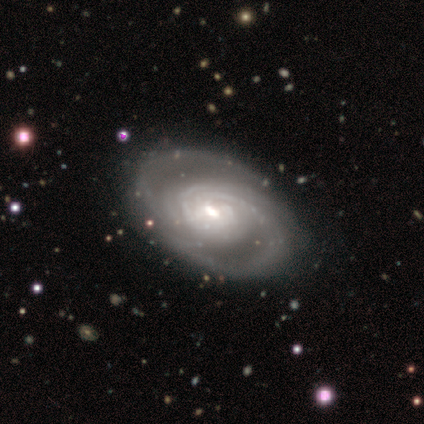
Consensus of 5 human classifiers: Volunteers were most divided on "bar" (2-way tie): weak: 40%, no: 40%, strong: 20%; "bulge size" (2-way tie): moderate: 40%, small: 40%, large: 20%, dominant: 0%, none: 0%. More confident: smooth or featured — featured or disk (100%); edge-on disk — no (100%); spiral arms — yes (100%); spiral winding — tight (100%); merging — none (100%); spiral arm count — can't tell (60%).